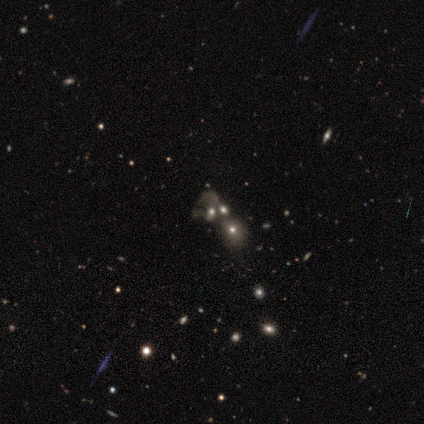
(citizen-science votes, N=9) Overall: star or artifact (56%; featured or disk 33%).